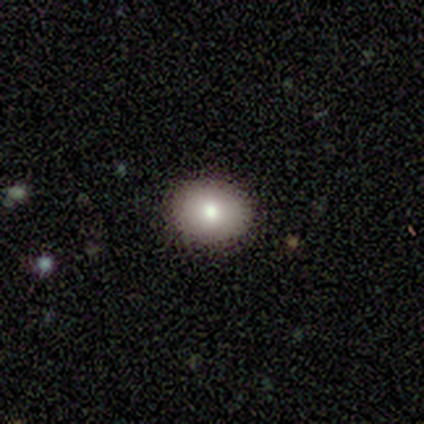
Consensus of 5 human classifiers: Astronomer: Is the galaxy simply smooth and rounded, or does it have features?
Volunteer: smooth — 80%.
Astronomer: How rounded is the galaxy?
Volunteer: in between — 75%.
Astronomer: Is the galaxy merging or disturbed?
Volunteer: none — 100%.